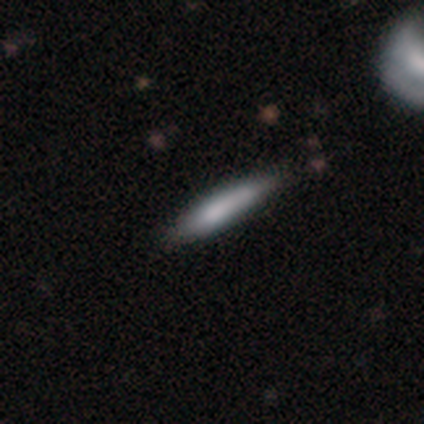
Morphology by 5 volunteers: Volunteers were most divided on "how rounded": cigar-shaped: 67%, round: 33%, in between: 0%. More confident: merging — none (100%); smooth or featured — smooth (60%).